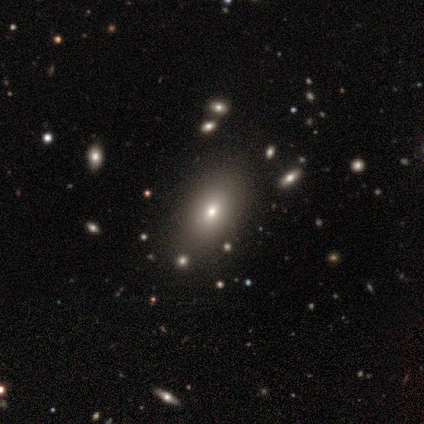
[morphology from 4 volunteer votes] A smooth galaxy with no disk features (100%) that is in between round and cigar-shaped (100%). Merging: none (100%).